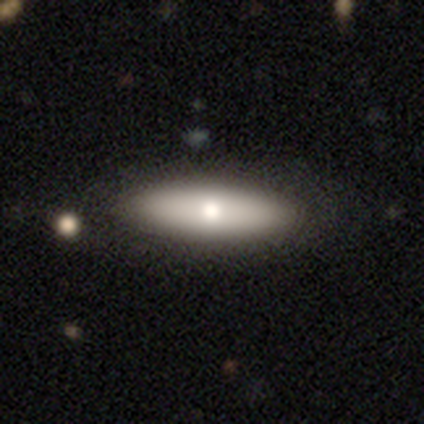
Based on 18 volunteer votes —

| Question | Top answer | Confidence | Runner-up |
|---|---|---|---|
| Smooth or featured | smooth | 61% | featured or disk (33%) |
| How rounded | cigar-shaped | 73% | in between (27%) |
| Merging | none | 94% | minor disturbance (6%) |